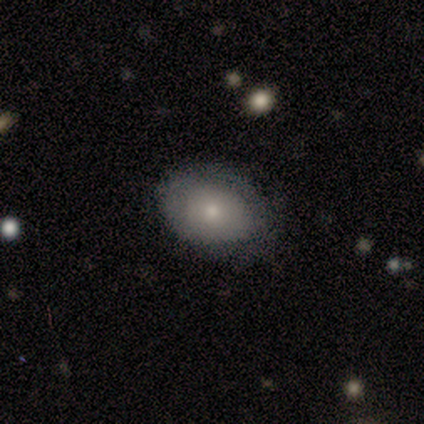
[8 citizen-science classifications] Morphology: type=smooth (88%); roundness=in between (100%); merging=none (75%).